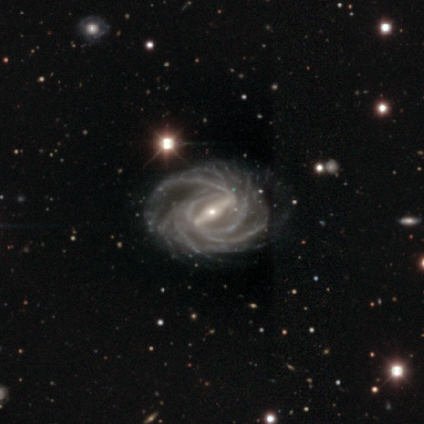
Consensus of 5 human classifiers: Morphology: type=featured or disk (100%); edge-on=no (100%); bar=strong (80%); spiral arms=yes (100%); winding=medium (60%); arm count=more than 4 (40%); bulge=small (100%); merging=none (100%).